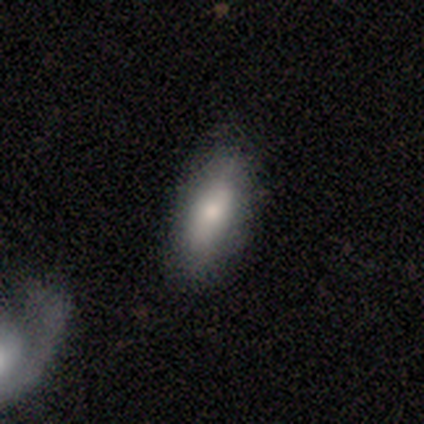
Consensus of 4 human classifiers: Smooth or featured?
  - smooth: 100% *
  - featured or disk: 0%
  - star or artifact: 0%
How rounded?
  - in between: 75% *
  - cigar-shaped: 25%
  - round: 0%
Merging?
  - none: 100% *
  - minor disturbance: 0%
  - major disturbance: 0%
  - merger: 0%